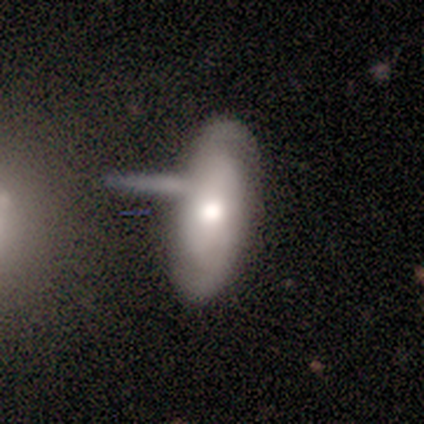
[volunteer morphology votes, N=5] smooth 40% (tied), featured or disk 40% (tied), star or artifact 20%. Down the decision tree: how rounded — in between (100%); merging — none (50%, tied with minor disturbance).